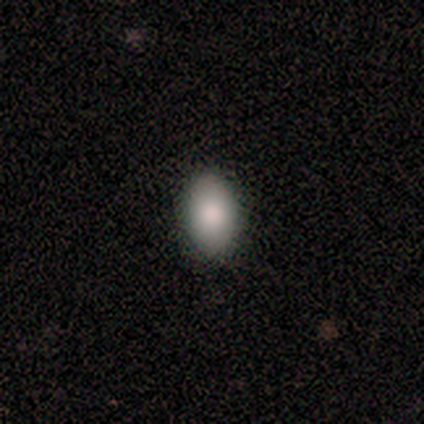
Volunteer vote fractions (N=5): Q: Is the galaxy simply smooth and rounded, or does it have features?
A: smooth — 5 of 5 (100%).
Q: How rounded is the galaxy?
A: in between — 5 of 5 (100%).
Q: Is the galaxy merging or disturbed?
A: none — 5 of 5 (100%).